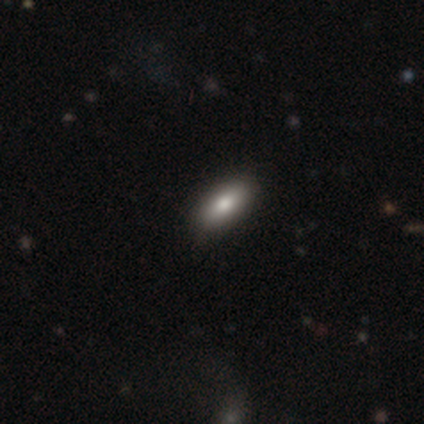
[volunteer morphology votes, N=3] This appears to be a smooth galaxy with no disk features (67%) that is in between round and cigar-shaped (50%, tied with cigar-shaped). Merging: none (100%).